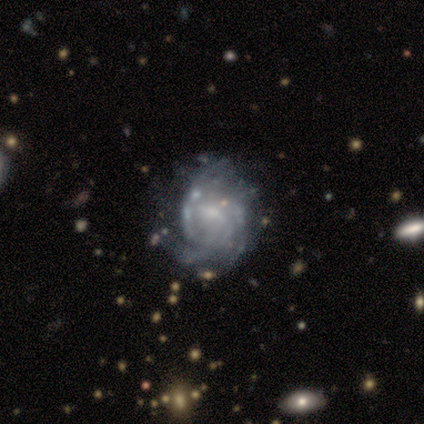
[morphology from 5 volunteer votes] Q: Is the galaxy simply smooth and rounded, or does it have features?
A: featured or disk — 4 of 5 (80%).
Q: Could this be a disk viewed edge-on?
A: no — 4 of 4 (100%).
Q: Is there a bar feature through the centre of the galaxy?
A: weak — 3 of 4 (75%).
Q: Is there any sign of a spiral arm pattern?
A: yes — 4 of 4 (100%).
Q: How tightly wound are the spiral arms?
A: medium — 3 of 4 (75%).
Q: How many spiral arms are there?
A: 2 — 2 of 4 (50%).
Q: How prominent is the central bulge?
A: small — 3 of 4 (75%).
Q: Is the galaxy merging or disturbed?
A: minor disturbance — 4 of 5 (80%).